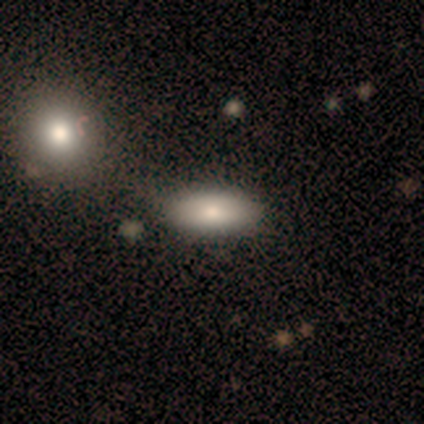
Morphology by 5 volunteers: Overall: smooth (80%). How rounded: in between (100%). Merging: none (60%; merger 40%).